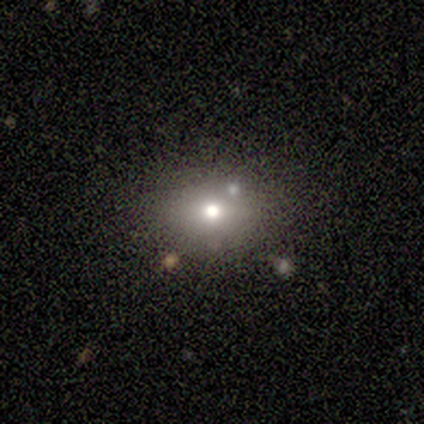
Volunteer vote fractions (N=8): Q: Smooth or featured?
A: smooth (88%); runner-up: featured or disk (12%)
Q: How rounded?
A: in between (71%); runner-up: round (29%)
Q: Merging?
A: none (75%); runner-up: minor disturbance (12%)